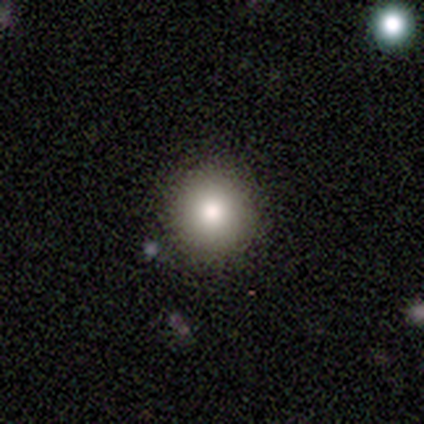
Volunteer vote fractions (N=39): Morphology: type=smooth (85%); roundness=round (97%); merging=none (79%).